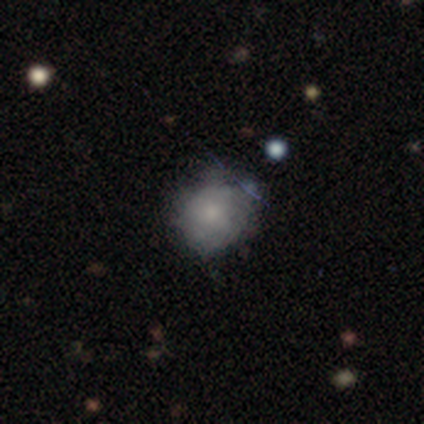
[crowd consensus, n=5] smooth-or-featured: smooth: 60% | featured or disk: 20% | star or artifact: 20%
  how-rounded: round: 100% | in between: 0% | cigar-shaped: 0%
  merging: none: 75% | minor disturbance: 25% | major disturbance: 0% | merger: 0%